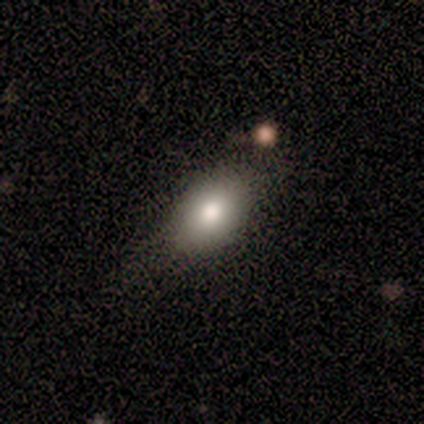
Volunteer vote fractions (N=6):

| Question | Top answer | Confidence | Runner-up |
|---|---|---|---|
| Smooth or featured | smooth | 67% | star or artifact (33%) |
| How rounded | in between | 100% | — |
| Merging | minor disturbance | 75% | none (25%) |